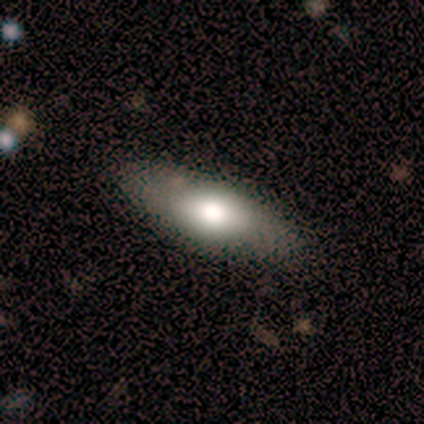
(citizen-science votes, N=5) Volunteers were most divided on "smooth or featured" (2-way tie): smooth: 40%, featured or disk: 40%, star or artifact: 20%. More confident: how rounded — cigar-shaped (100%); merging — none (100%).